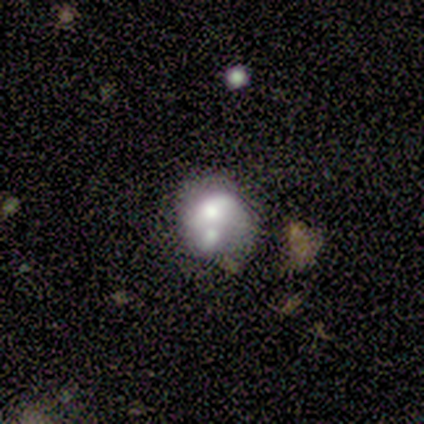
Q: Smooth or featured?
A: smooth (56%); runner-up: featured or disk (44%)
Q: How rounded?
A: round (60%); runner-up: in between (40%)
Q: Merging?
A: merger (67%); runner-up: none (22%)